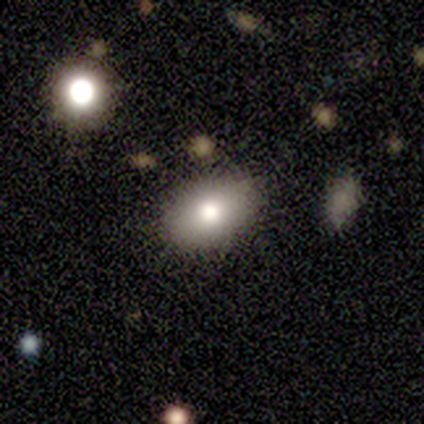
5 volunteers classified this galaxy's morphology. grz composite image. It shows a smooth galaxy with no disk features (80%) that is in between round and cigar-shaped (100%). Merging: none (100%).